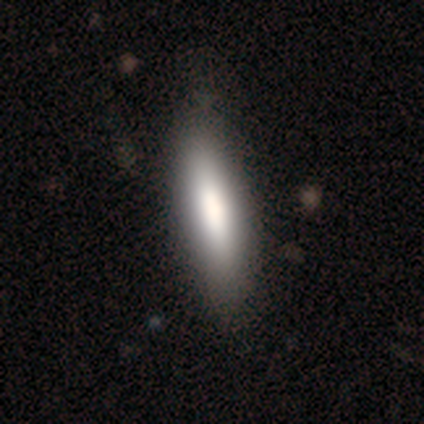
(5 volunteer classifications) A smooth galaxy with no disk features (60%) that is cigar-shaped (100%). Merging: none (80%).